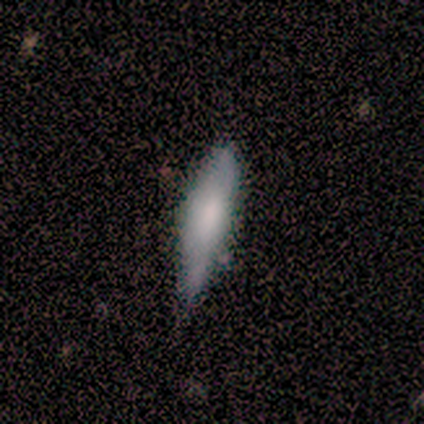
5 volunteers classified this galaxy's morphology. Q: Smooth or featured?
A: smooth (60%); runner-up: featured or disk (40%)
Q: How rounded?
A: cigar-shaped (67%); runner-up: in between (33%)
Q: Merging?
A: none (60%); runner-up: minor disturbance (40%)